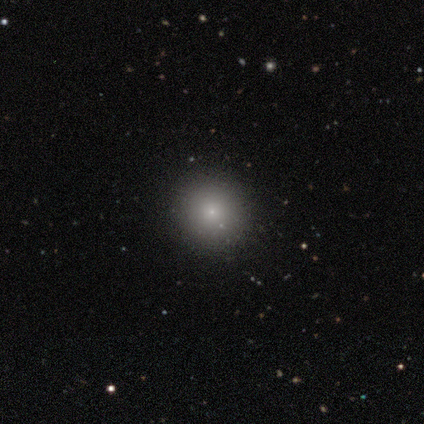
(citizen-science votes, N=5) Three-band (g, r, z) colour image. It shows a smooth galaxy with no disk features (60%) that is round (100%). Merging: none (100%).